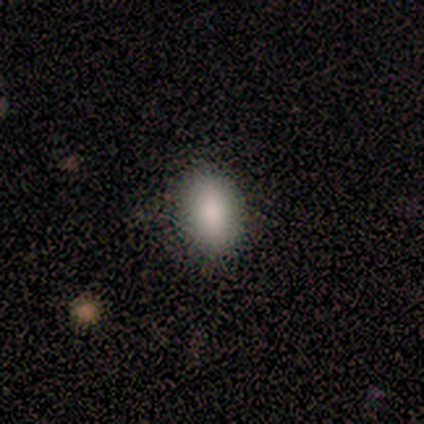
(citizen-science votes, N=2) Smooth or featured? smooth (50%, tied with star or artifact)
How rounded? in between (100%)
Merging? none (100%)